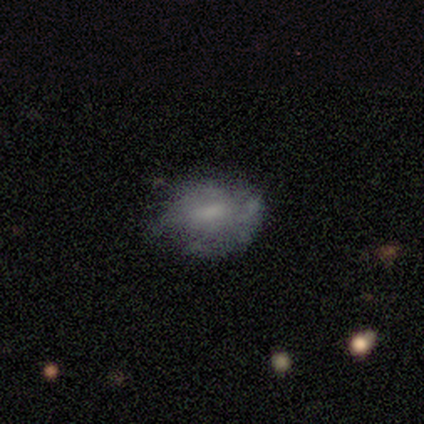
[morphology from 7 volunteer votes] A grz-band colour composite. It shows a smooth galaxy with no disk features (57%) that is in between round and cigar-shaped (75%). Merging: none (43%).